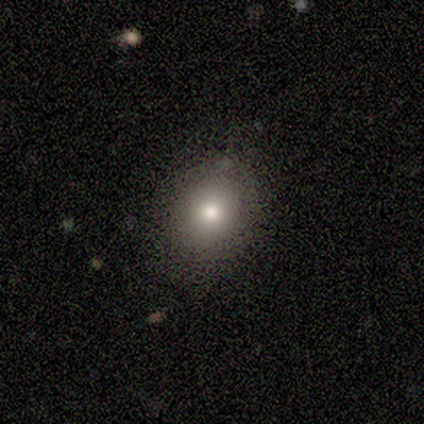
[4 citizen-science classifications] A smooth galaxy with no disk features (100%) that is round (75%).

Vote fractions:
- Smooth or featured? smooth: 100% / featured or disk: 0% / star or artifact: 0%
- How rounded? round: 75% / in between: 25% / cigar-shaped: 0%
- Merging? none: 100% / minor disturbance: 0% / major disturbance: 0% / merger: 0%